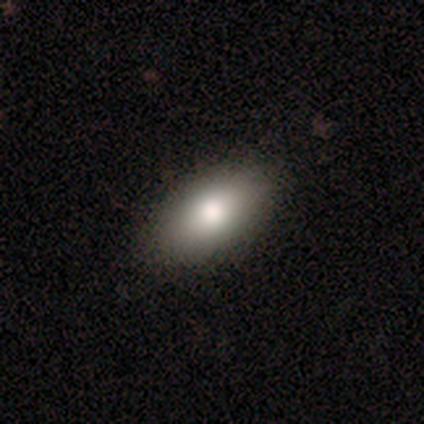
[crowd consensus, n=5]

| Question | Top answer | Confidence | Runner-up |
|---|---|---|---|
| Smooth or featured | smooth | 80% | featured or disk (20%) |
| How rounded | in between | 75% | round (25%) |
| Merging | none | 100% | — |